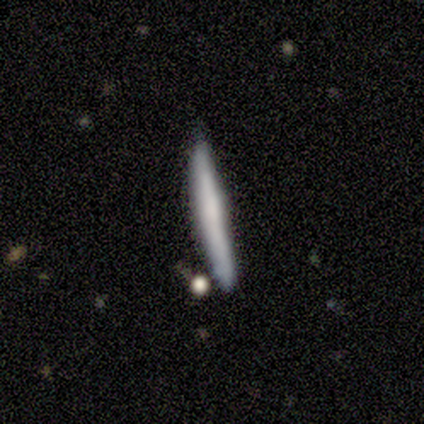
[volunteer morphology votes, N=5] A featured or disk galaxy (60%) viewed edge-on (100%) with no central bulge (100%).

Vote fractions:
- Smooth or featured? featured or disk: 60% / smooth: 40% / star or artifact: 0%
- Edge-on disk? yes: 100% / no: 0%
- Edge-on bulge? none: 100% / boxy: 0% / rounded: 0%
- Merging? none: 80% / minor disturbance: 20% / major disturbance: 0% / merger: 0%